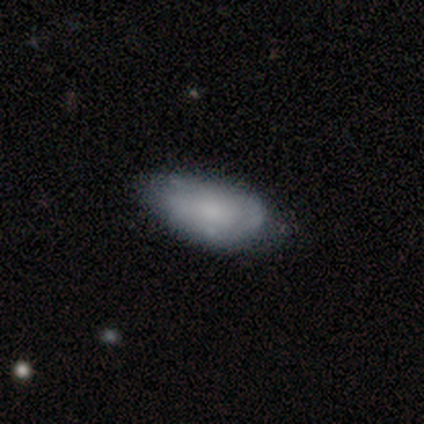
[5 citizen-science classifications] Smooth or featured?
  - smooth: 40% * (tied)
  - featured or disk: 40% * (tied)
  - star or artifact: 20%
How rounded?
  - in between: 100% *
  - round: 0%
  - cigar-shaped: 0%
Merging?
  - none: 75% *
  - minor disturbance: 25%
  - major disturbance: 0%
  - merger: 0%